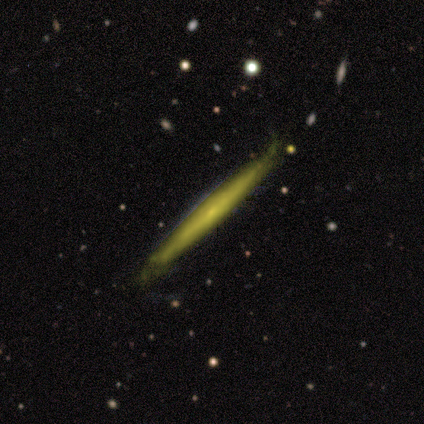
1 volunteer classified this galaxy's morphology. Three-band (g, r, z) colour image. It shows a featured or disk galaxy (100%) viewed edge-on (100%) with a rounded central bulge (100%). Merging: none (100%).